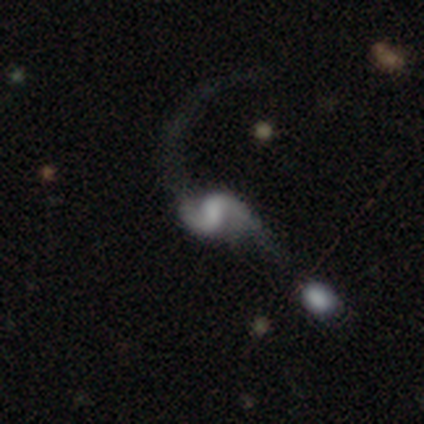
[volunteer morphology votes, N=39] type=featured or disk (90%); edge-on=no (100%); bar=weak (54%); spiral arms=yes (94%); winding=loose (82%); arm count=2 (94%); bulge=small (34%, tied with none); merging=major disturbance (38%).